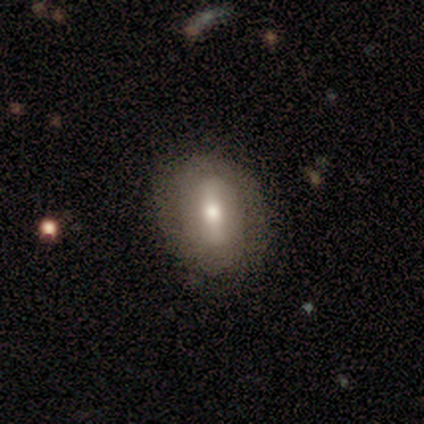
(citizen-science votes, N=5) Q: Smooth or featured?
A: smooth (60%); runner-up: featured or disk (40%)
Q: How rounded?
A: round (67%); runner-up: in between (33%)
Q: Merging?
A: none (80%); runner-up: major disturbance (20%)